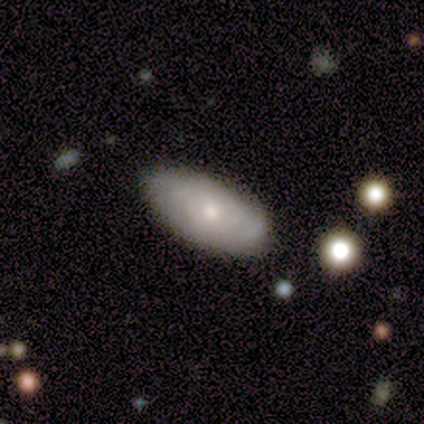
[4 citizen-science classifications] Morphology: type=smooth (50%, tied with featured or disk); roundness=in between (100%); merging=none (100%).